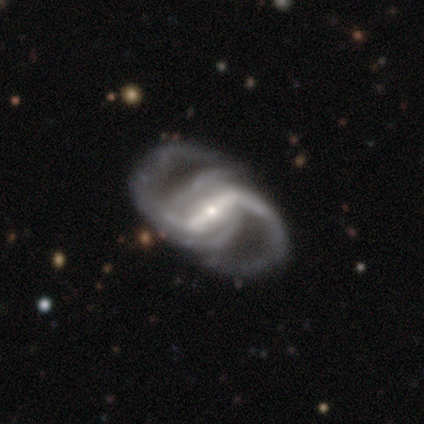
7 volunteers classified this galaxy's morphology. A featured or disk galaxy (100%) with a strong bar (57%), 2 (86%) medium (43%, tied with loose) spiral arms (100%) and a small central bulge (86%). Merging: none (71%).